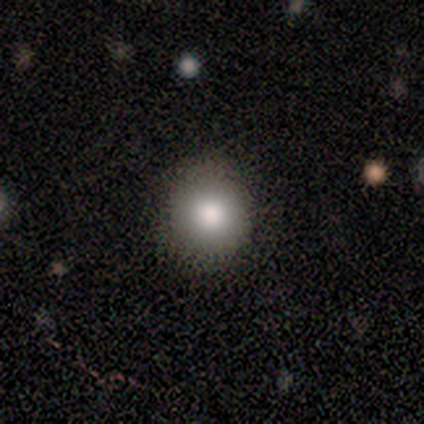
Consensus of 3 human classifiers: A smooth galaxy with no disk features (67%) that is round (100%).

Vote fractions:
- Smooth or featured? smooth: 67% / star or artifact: 33% / featured or disk: 0%
- How rounded? round: 100% / in between: 0% / cigar-shaped: 0%
- Merging? none: 100% / minor disturbance: 0% / major disturbance: 0% / merger: 0%